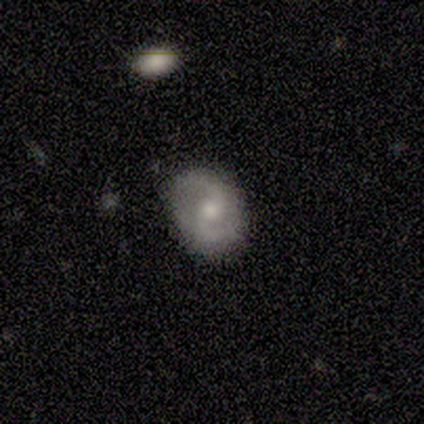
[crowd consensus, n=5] Smooth or featured?
  - featured or disk: 100% *
  - smooth: 0%
  - star or artifact: 0%
Edge-on disk?
  - no: 100% *
  - yes: 0%
Bar?
  - no: 80% *
  - weak: 20%
  - strong: 0%
Spiral arms?
  - yes: 60% *
  - no: 40%
Spiral winding?
  - loose: 67% *
  - medium: 33%
  - tight: 0%
Spiral arm count?
  - 2: 100% *
  - 1: 0%
  - 3: 0%
  - 4: 0%
  - more than 4: 0%
  - can't tell: 0%
Bulge size?
  - small: 60% *
  - moderate: 40%
  - dominant: 0%
  - large: 0%
  - none: 0%
Merging?
  - none: 100% *
  - minor disturbance: 0%
  - major disturbance: 0%
  - merger: 0%